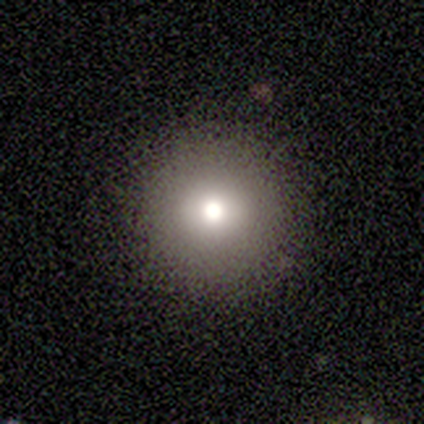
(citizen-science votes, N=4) Consensus on every question: smooth or featured — smooth (100%); how rounded — round (100%); merging — none (100%).